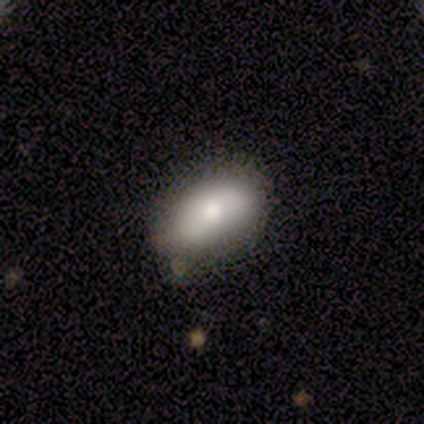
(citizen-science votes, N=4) This appears to be a smooth galaxy with no disk features (50%) that is in between round and cigar-shaped (100%). Merging: none (100%).